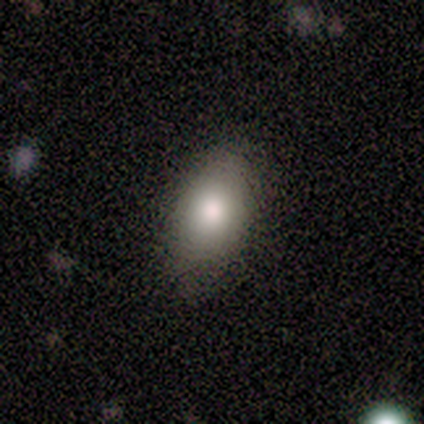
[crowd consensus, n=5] A smooth galaxy with no disk features (80%) that is in between round and cigar-shaped (100%).

Vote fractions:
- Smooth or featured? smooth: 80% / featured or disk: 20% / star or artifact: 0%
- How rounded? in between: 100% / round: 0% / cigar-shaped: 0%
- Merging? none: 60% / minor disturbance: 40% / major disturbance: 0% / merger: 0%